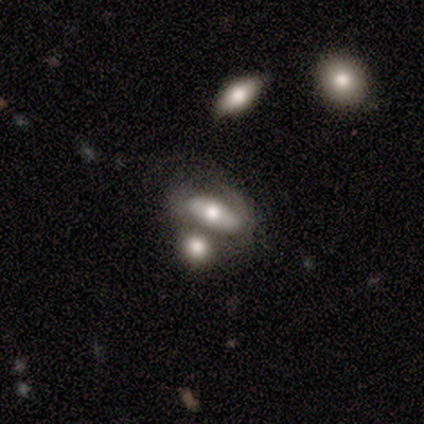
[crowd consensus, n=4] A featured or disk galaxy (75%) with no bar (100%), tight (100%) spiral arms (50%, tied with no) and a moderate central bulge (100%). Merging: none (50%, tied with merger).